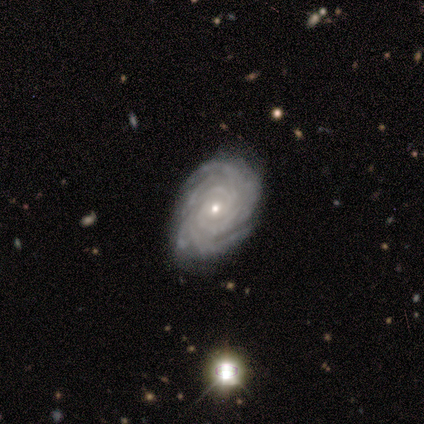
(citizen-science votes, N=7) Smooth or featured? 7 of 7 (100%) said featured or disk. Edge-on disk? 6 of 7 (86%) said no. Bar? 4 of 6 (67%) said no. Spiral arms? 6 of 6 (100%) said yes. Spiral winding? 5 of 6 (83%) said tight. Spiral arm count? 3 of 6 (50%) said more than 4. Bulge size? 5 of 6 (83%) said small. Merging? 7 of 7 (100%) said none.